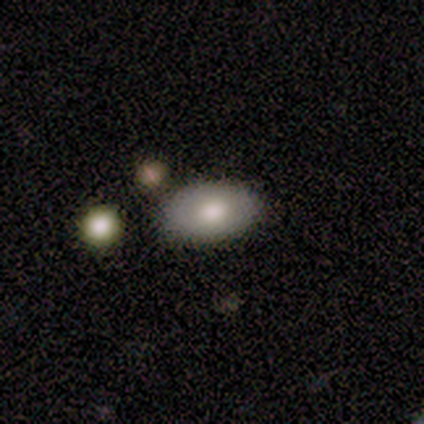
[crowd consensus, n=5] Volunteers were most divided on "smooth or featured": smooth: 60%, featured or disk: 40%, star or artifact: 0%. More confident: how rounded — in between (100%); merging — none (100%).